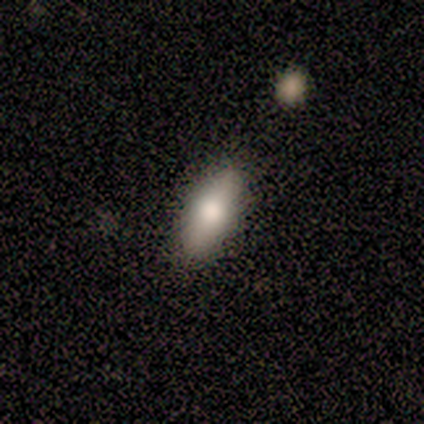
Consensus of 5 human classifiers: Overall: smooth (60%; featured or disk 20%). How rounded: in between (67%; cigar-shaped 33%). Merging: none (100%).